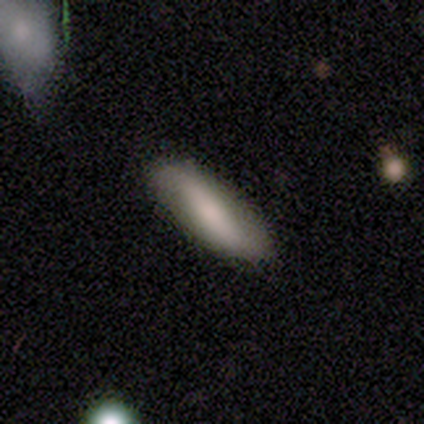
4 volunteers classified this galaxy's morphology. smooth_or_featured: smooth (p=1.00)
how_rounded: in between (p=0.50) [tied with: cigar-shaped p=0.50]
merging: none (p=0.75) [alt: minor disturbance p=0.25]